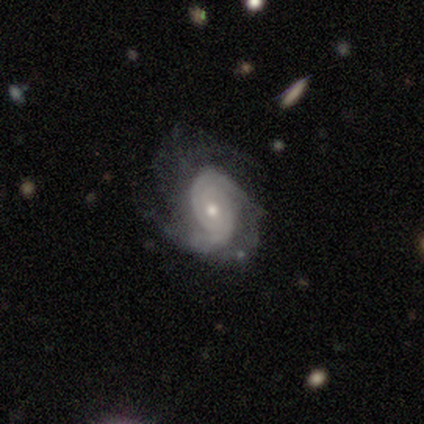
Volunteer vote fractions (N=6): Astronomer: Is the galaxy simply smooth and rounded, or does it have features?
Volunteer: featured or disk — 100%.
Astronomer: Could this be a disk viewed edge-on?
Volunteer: no — 83%.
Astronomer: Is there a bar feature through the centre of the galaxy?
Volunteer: weak — 60%.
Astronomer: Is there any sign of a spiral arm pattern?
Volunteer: yes — 100%.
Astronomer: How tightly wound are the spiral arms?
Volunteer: tight — 60% (runner-up: medium, 40%).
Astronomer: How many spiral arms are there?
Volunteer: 2 — 60%.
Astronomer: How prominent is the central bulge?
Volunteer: moderate — 80%.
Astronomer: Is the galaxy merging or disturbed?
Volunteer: minor disturbance — 83%.